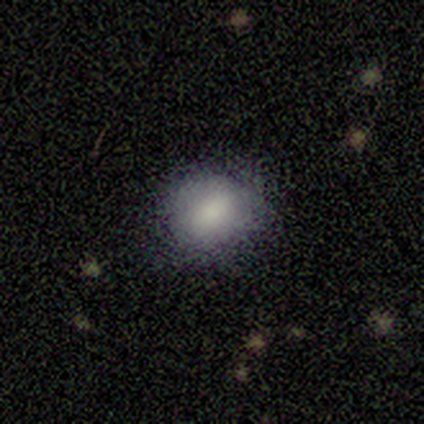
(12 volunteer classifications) Smooth or featured: smooth — 75% (featured or disk — 17%)
How rounded: round — 56% (in between — 44%)
Merging: none — 64% (minor disturbance — 27%)